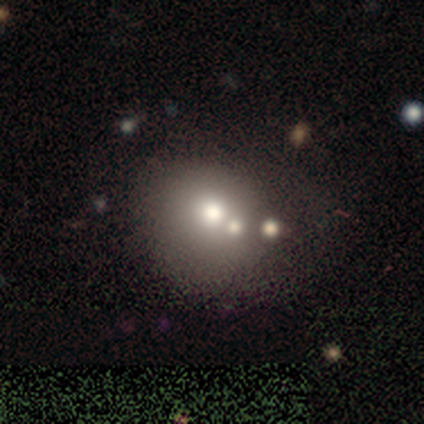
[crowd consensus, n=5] Volunteers were most divided on "merging" (3-way tie): none: 33%, minor disturbance: 33%, merger: 33%, major disturbance: 0%. More confident: how rounded — round (100%); smooth or featured — smooth (60%).